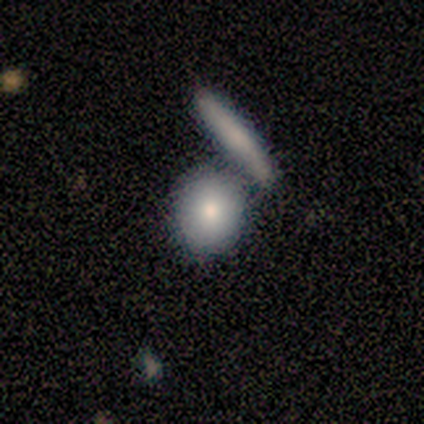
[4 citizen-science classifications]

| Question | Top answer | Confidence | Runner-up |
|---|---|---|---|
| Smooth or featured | smooth | 100% | — |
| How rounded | round | 50% | in between (25%) |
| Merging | none | 50% | tied: merger (50%) |